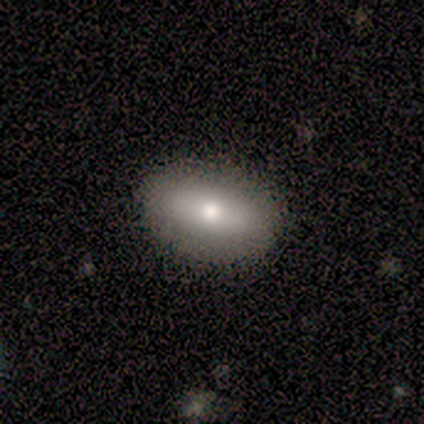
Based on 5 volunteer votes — A featured or disk galaxy (60%) with a strong bar (33%, tied with weak and no), no spiral arms (100%) and a moderate central bulge (67%). Merging: none (60%).